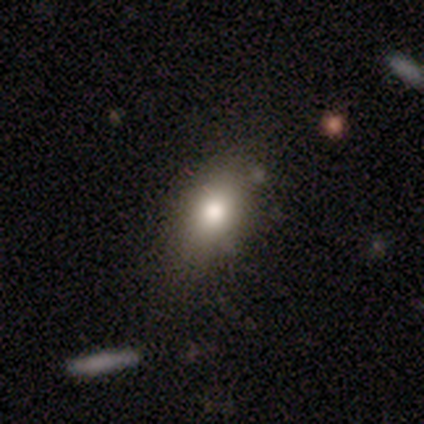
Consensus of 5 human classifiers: Morphology: type=smooth (60%); roundness=in between (67%); merging=none (60%).